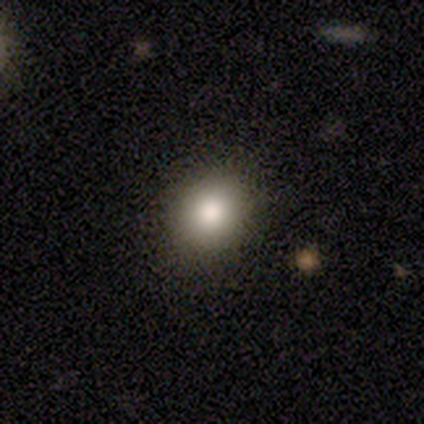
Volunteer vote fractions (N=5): Smooth or featured?
  - smooth: 100% *
  - featured or disk: 0%
  - star or artifact: 0%
How rounded?
  - round: 40% * (tied)
  - in between: 40% * (tied)
  - cigar-shaped: 20%
Merging?
  - none: 100% *
  - minor disturbance: 0%
  - major disturbance: 0%
  - merger: 0%